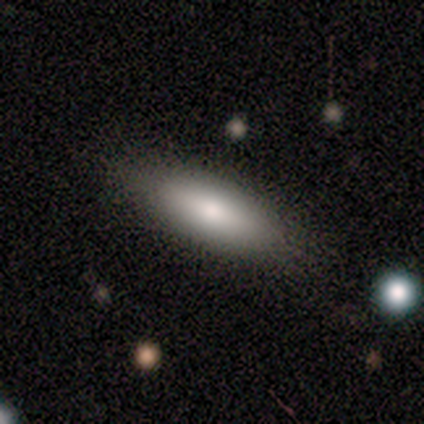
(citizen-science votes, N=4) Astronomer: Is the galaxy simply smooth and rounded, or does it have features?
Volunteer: smooth — 75%.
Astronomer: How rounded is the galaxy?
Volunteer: cigar-shaped — 100%.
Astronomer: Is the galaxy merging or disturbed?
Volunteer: none — 75%.